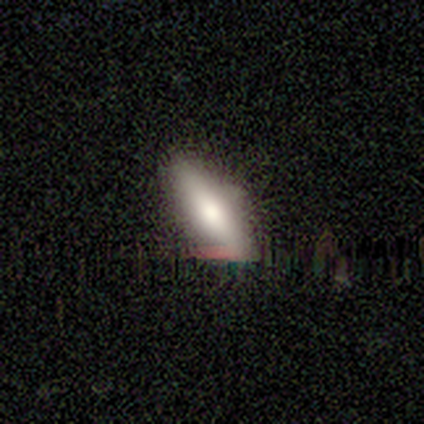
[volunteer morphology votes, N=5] This is clearly a smooth galaxy (80%). How rounded: clearly in between (100%). Merging: likely minor disturbance (60%).